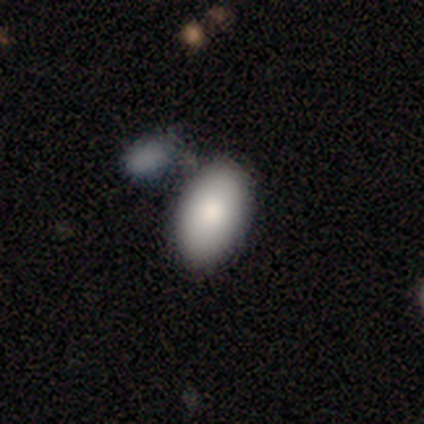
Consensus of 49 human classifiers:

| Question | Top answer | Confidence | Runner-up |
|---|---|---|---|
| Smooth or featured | smooth | 86% | featured or disk (12%) |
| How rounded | in between | 95% | round (5%) |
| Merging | none | 60% | merger (21%) |